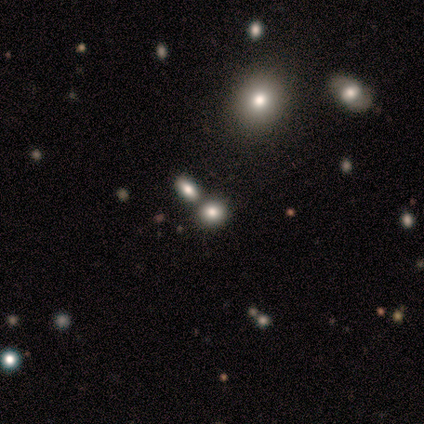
Smooth or featured: smooth — 75% (star or artifact — 25%)
How rounded: in between — 67% (round — 33%)
Merging: none — 67% (merger — 33%)